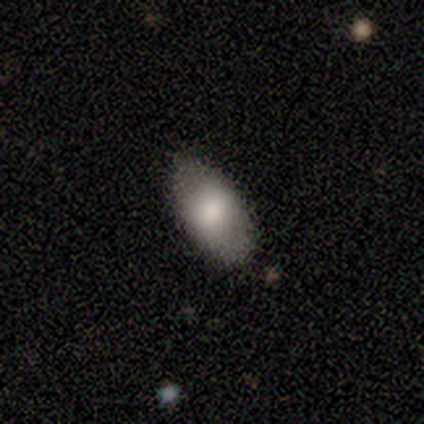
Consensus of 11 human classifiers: This is clearly a smooth galaxy (82%). How rounded: clearly in between (100%). Merging: clearly none (100%).